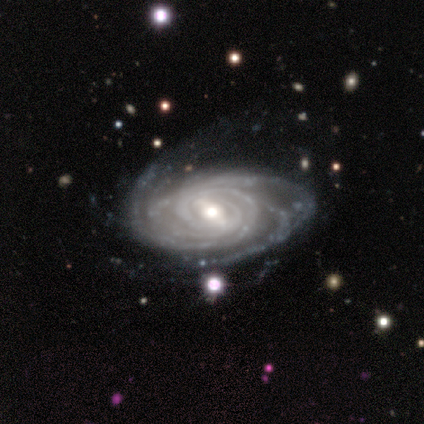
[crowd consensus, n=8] featured or disk 100%, smooth 0%, star or artifact 0%. Down the decision tree: edge-on disk — no (100%); bar — strong (88%); spiral arms — yes (100%); spiral arm count — more than 4 (62%); spiral winding — medium (62%); bulge size — moderate (88%); merging — none (50%).